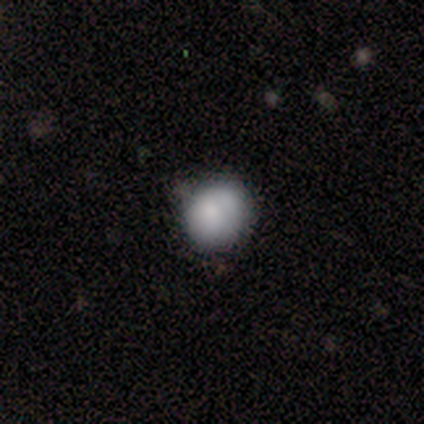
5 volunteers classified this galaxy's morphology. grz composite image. It shows a smooth galaxy with no disk features (100%) that is round (60%). Merging: none (80%).